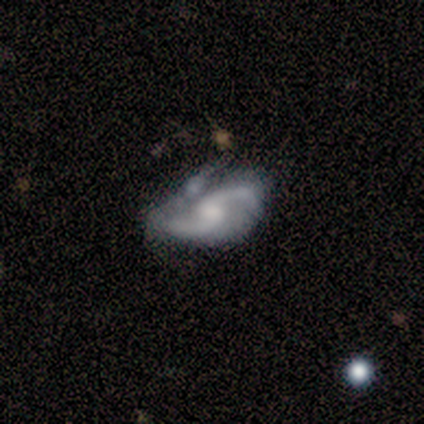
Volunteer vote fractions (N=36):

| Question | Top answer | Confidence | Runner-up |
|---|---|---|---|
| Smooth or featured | featured or disk | 83% | smooth (8%) |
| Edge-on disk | no | 100% | — |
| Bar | weak | 53% | no (37%) |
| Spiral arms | yes | 83% | no (17%) |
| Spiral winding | loose | 76% | medium (20%) |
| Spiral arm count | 2 | 96% | 1 (4%) |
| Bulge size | moderate | 40% | small (27%) |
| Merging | merger | 36% | minor disturbance (33%) |